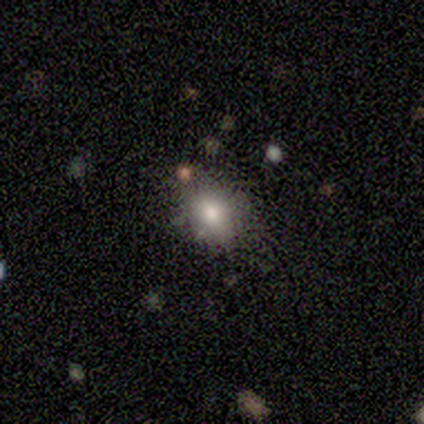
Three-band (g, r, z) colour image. It shows a smooth galaxy with no disk features (60%) that is round (67%). Merging: none (67%).